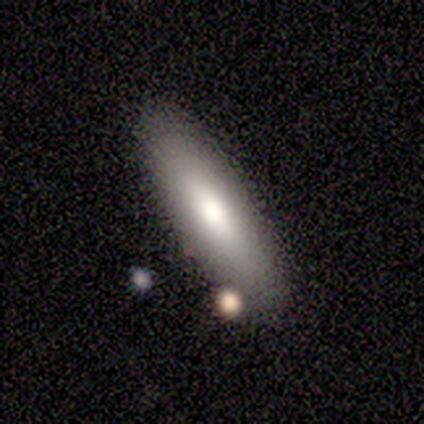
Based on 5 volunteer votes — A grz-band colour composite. It shows a smooth galaxy with no disk features (60%) that is in between round and cigar-shaped (67%). Merging: none (100%).